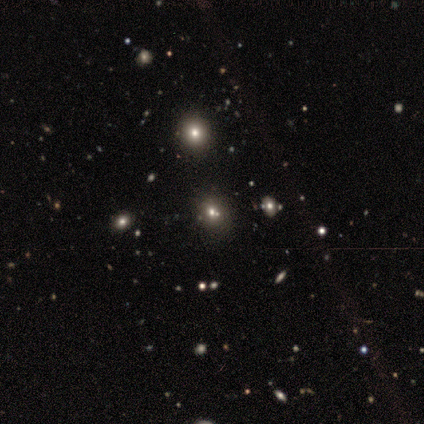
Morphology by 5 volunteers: Smooth or featured: smooth — 80% (star or artifact — 20%)
How rounded: round — 100%
Merging: none — 75% (minor disturbance — 25%)